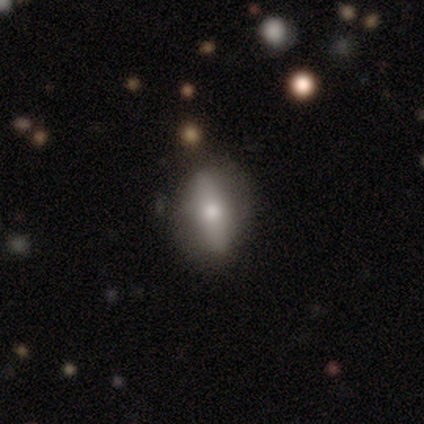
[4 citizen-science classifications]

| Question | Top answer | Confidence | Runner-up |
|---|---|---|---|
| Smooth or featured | smooth | 50% | tied: featured or disk (50%) |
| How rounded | in between | 50% | tied: cigar-shaped (50%) |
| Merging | none | 100% | — |